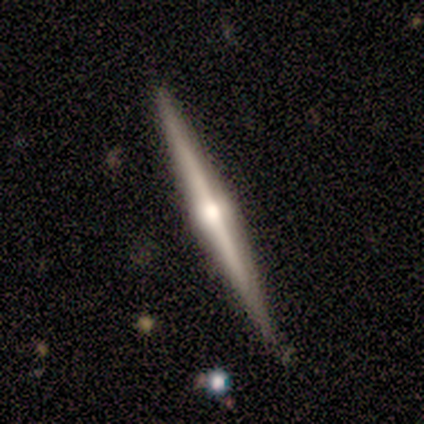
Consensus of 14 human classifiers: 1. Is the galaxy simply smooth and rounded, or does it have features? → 79% featured or disk, 14% star or artifact, 7% smooth.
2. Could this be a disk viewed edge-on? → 100% yes, 0% no.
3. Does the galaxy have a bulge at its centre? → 100% rounded, 0% boxy, 0% none.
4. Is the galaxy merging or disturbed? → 100% none, 0% minor disturbance, 0% major disturbance, 0% merger.